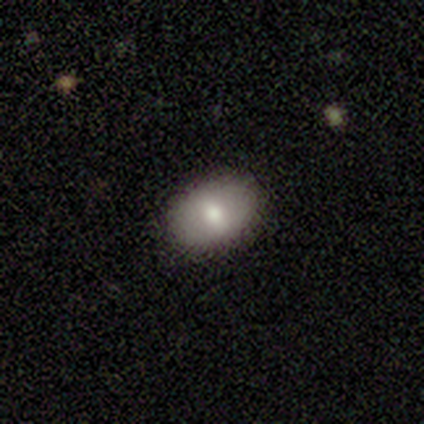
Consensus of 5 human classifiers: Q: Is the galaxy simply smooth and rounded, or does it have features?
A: smooth — 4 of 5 (80%).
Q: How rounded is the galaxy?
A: in between — 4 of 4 (100%).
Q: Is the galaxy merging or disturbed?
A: none — 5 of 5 (100%).